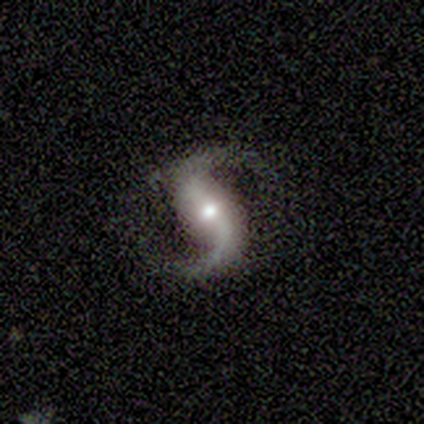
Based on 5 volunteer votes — Overall: featured or disk (100%). Edge-on disk: no (100%). Bar: weak (40%, tied with no). Spiral arms: yes (100%). Spiral arm count: 2 (100%). Spiral winding: loose (80%). Bulge size: moderate (60%; small 40%). Merging: none (100%).